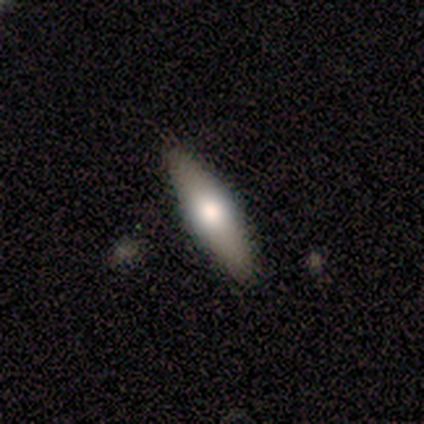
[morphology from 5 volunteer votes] smooth_or_featured: featured or disk (p=0.60) [alt: smooth p=0.40]
disk_edge_on: yes (p=1.00)
edge_on_bulge: rounded (p=1.00)
merging: none (p=0.60) [alt: minor disturbance p=0.40]